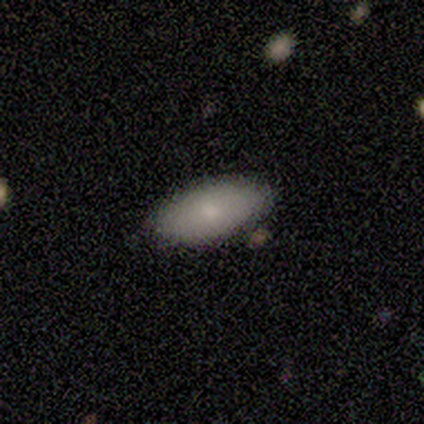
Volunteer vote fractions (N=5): Smooth or featured? smooth (80%)
How rounded? in between (100%)
Merging? none (80%)